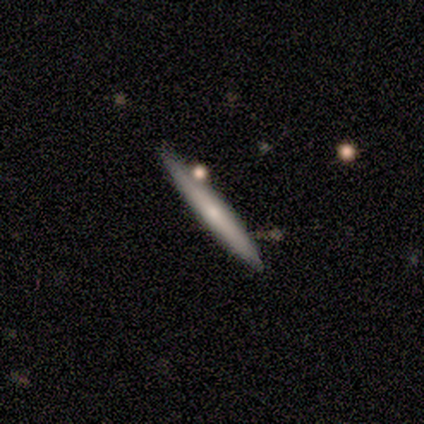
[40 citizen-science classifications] This is possibly a featured or disk galaxy (57%). It is clearly viewed edge-on (91%). Edge-on bulge: possibly none (48%). Merging: likely none (79%).